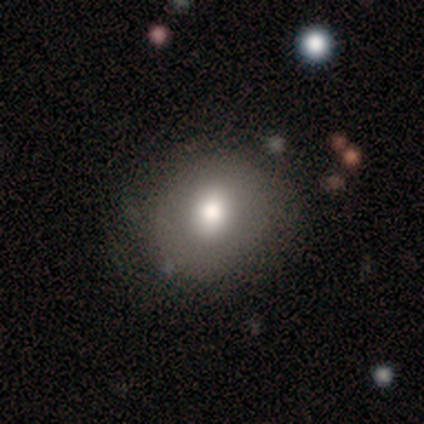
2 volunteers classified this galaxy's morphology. Overall: smooth (50%, tied with star or artifact). How rounded: round (100%). Merging: none (100%).